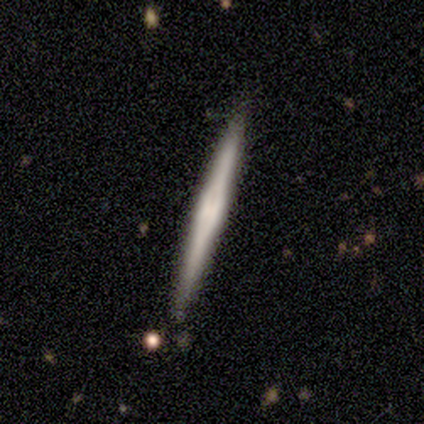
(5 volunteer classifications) Smooth or featured? 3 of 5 (60%) said featured or disk. Edge-on disk? 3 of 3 (100%) said yes. Edge-on bulge? 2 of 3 (67%) said none. Merging? 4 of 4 (100%) said none.